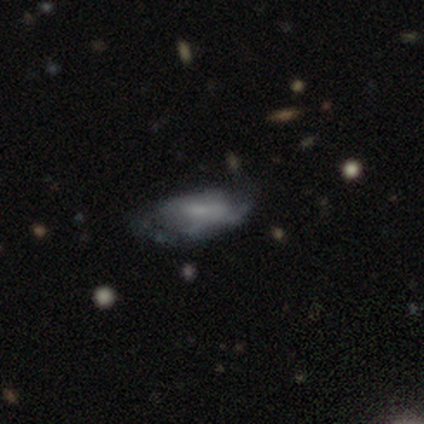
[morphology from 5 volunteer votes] Overall: featured or disk (80%). Edge-on disk: no (100%). Bar: no (50%; strong 25%). Spiral arms: no (75%). Bulge size: small (50%, tied with none). Merging: none (60%; minor disturbance 20%).